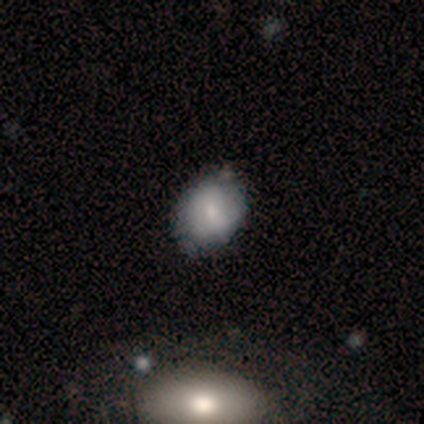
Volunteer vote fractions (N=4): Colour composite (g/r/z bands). It shows a smooth galaxy with no disk features (100%) that is round (50%, tied with in between). Merging: none (75%).